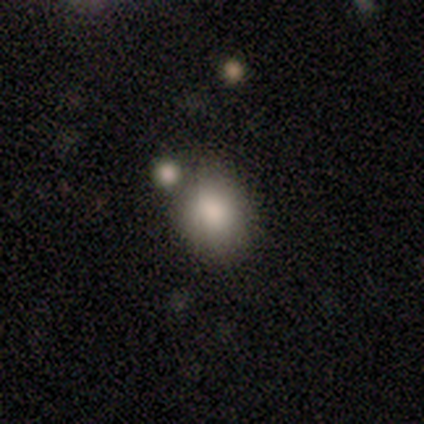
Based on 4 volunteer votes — This is likely a smooth galaxy (75%). How rounded: clearly round (100%). Merging: likely merger (75%).